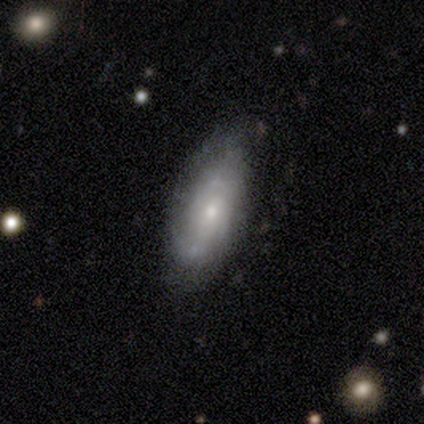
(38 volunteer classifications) Smooth or featured?
  - featured or disk: 53% *
  - smooth: 45%
  - star or artifact: 3%
Edge-on disk?
  - no: 85% *
  - yes: 15%
Bar?
  - no: 71% *
  - weak: 29%
  - strong: 0%
Spiral arms?
  - yes: 82% *
  - no: 18%
Spiral winding?
  - tight: 43% *
  - loose: 36%
  - medium: 21%
Spiral arm count?
  - can't tell: 57% *
  - 3: 21%
  - 2: 14%
  - 1: 7%
  - 4: 0%
  - more than 4: 0%
Bulge size?
  - small: 88% *
  - moderate: 12%
  - dominant: 0%
  - large: 0%
  - none: 0%
Merging?
  - none: 70% *
  - minor disturbance: 27%
  - merger: 3%
  - major disturbance: 0%